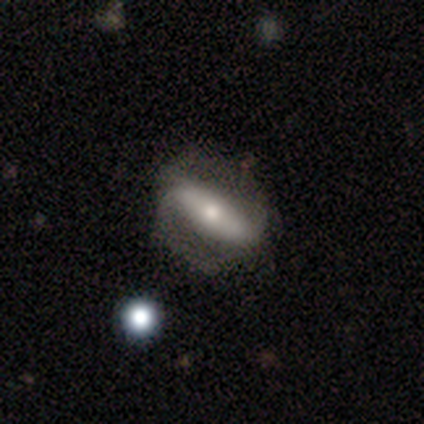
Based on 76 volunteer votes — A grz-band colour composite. It shows a featured or disk galaxy (67%) with a strong bar (64%), 2 (79%) loose (47%) spiral arms (81%) and a moderate central bulge (70%). Merging: none (36%).